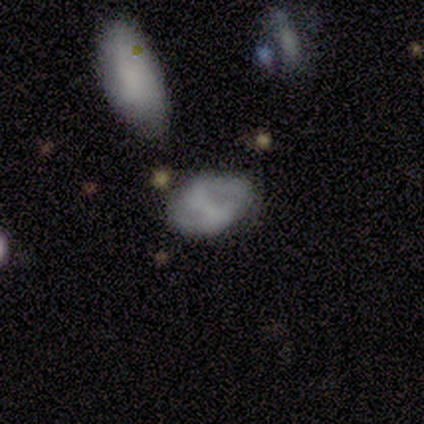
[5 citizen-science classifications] Morphology: type=smooth (40%, tied with featured or disk); roundness=in between (100%); merging=minor disturbance (50%).